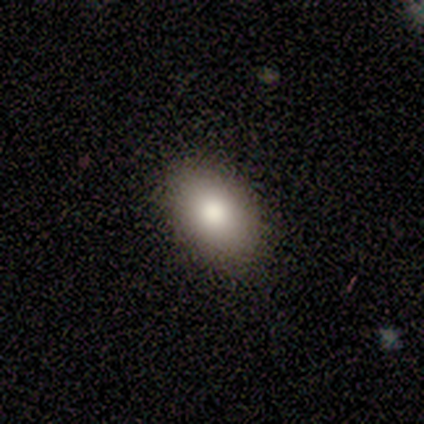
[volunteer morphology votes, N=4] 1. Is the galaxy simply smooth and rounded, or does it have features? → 100% smooth, 0% featured or disk, 0% star or artifact.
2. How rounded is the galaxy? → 75% in between, 25% round, 0% cigar-shaped.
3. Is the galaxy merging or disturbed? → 75% none, 25% minor disturbance, 0% major disturbance, 0% merger.